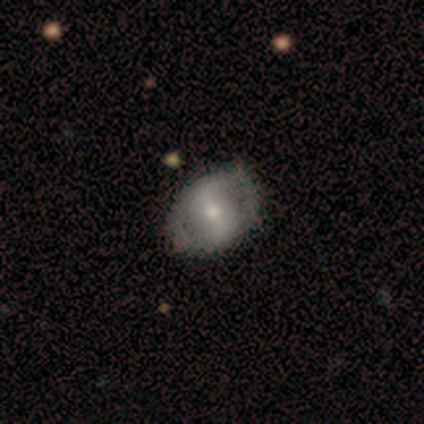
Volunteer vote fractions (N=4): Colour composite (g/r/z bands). It shows a featured or disk galaxy (75%) with a strong bar (67%), no spiral arms (67%) and a large central bulge (33%, tied with moderate and small). Merging: none (75%).